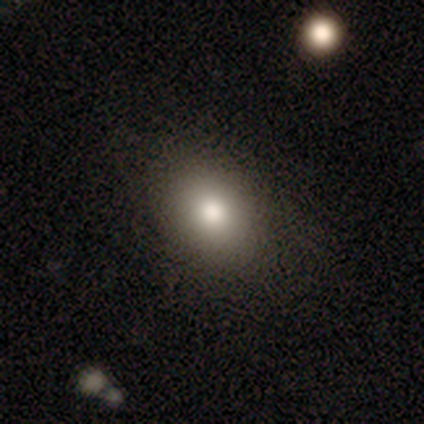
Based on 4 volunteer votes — Smooth or featured: smooth — 100%
How rounded: in between — 100%
Merging: none — 100%